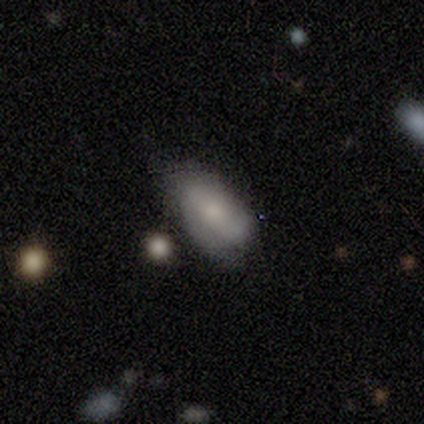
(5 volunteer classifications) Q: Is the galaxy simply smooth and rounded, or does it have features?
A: smooth — 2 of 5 (40%, tied with featured or disk).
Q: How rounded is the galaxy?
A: round — 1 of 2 (50%, tied with in between).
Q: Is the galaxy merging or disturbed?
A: none — 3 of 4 (75%).